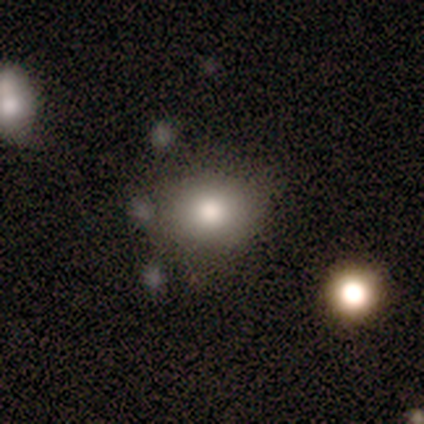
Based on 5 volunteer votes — A smooth galaxy with no disk features (80%) that is in between round and cigar-shaped (75%).

Vote fractions:
- Smooth or featured? smooth: 80% / star or artifact: 20% / featured or disk: 0%
- How rounded? in between: 75% / round: 25% / cigar-shaped: 0%
- Merging? none: 75% / minor disturbance: 25% / major disturbance: 0% / merger: 0%